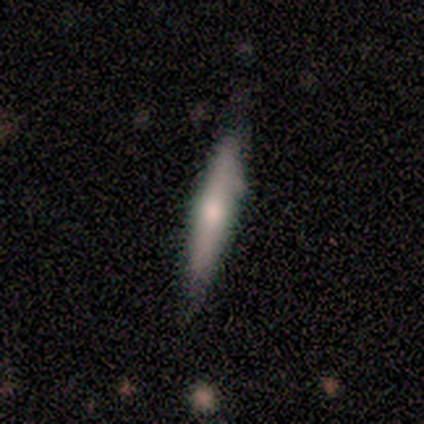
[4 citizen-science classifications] Morphology: type=smooth (75%); roundness=cigar-shaped (67%); merging=none (100%).